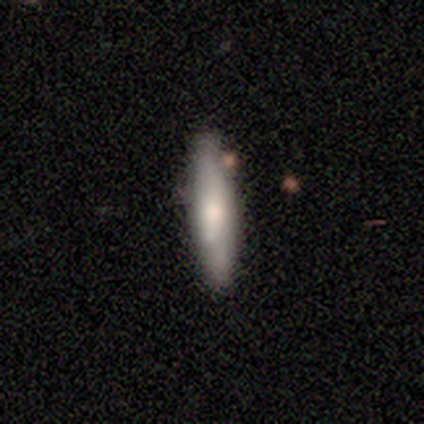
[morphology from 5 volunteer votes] Volunteers were most divided on "smooth or featured": smooth: 60%, featured or disk: 20%, star or artifact: 20%. More confident: how rounded — cigar-shaped (100%); merging — none (75%).